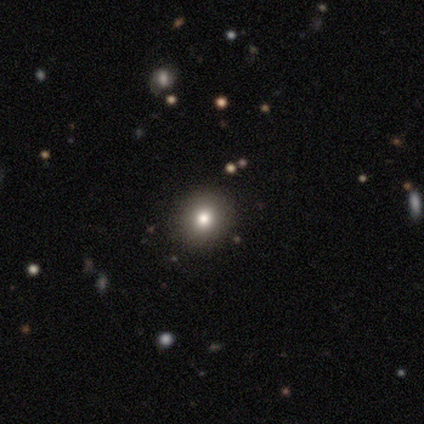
Overall: smooth (100%). How rounded: round (100%). Merging: none (100%).